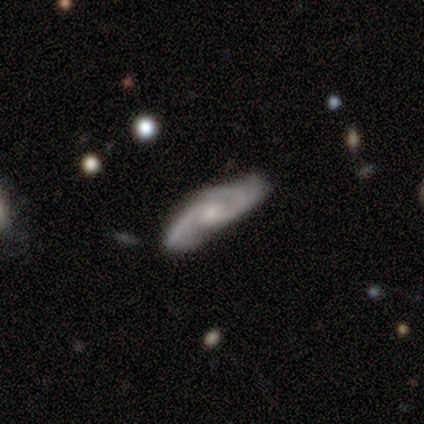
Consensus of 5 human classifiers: A featured or disk galaxy (100%) with no bar (75%), 2 (75%) medium (50%) spiral arms (100%) and a moderate central bulge (75%). Merging: none (60%).